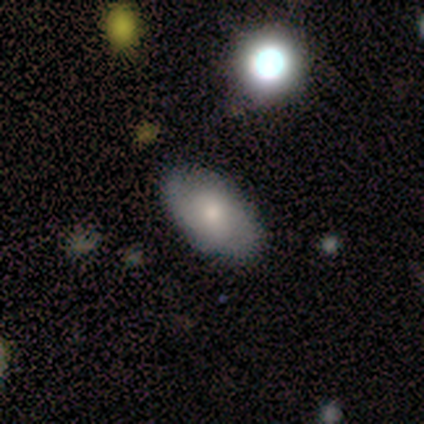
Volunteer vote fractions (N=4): Smooth or featured?
  - smooth: 75% *
  - featured or disk: 25%
  - star or artifact: 0%
How rounded?
  - in between: 100% *
  - round: 0%
  - cigar-shaped: 0%
Merging?
  - none: 75% *
  - minor disturbance: 25%
  - major disturbance: 0%
  - merger: 0%